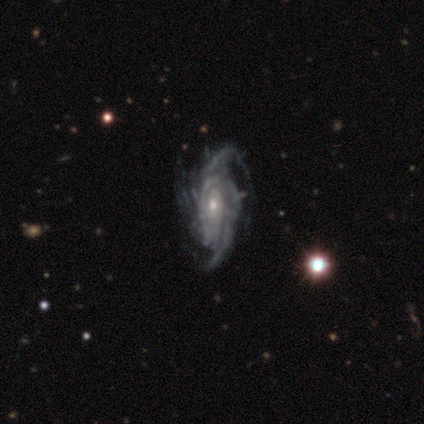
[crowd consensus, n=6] Volunteers were most divided on "spiral winding" (2-way tie): tight: 50%, medium: 50%, loose: 0%. More confident: smooth or featured — featured or disk (100%); edge-on disk — no (100%); spiral arms — yes (100%); bulge size — small (83%); merging — none (67%); bar — no (67%); spiral arm count — 2 (67%).